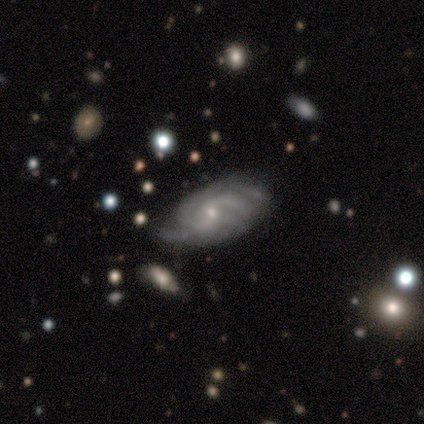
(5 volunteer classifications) A featured or disk galaxy (100%) with no bar (80%), 2 (60%) medium (60%) spiral arms (100%) and a small central bulge (100%). Merging: none (100%).